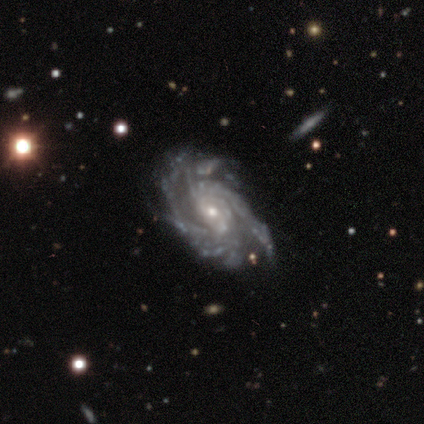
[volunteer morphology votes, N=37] type=featured or disk (95%); edge-on=no (94%); bar=no (67%); spiral arms=yes (97%); winding=tight (66%); arm count=more than 4 (38%); bulge=small (61%); merging=none (89%).